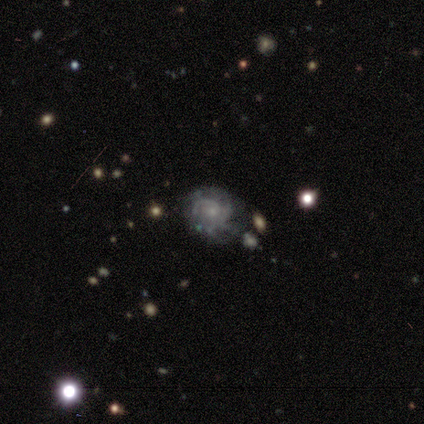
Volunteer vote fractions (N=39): Smooth or featured? 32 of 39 (82%) said featured or disk. Edge-on disk? 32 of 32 (100%) said no. Bar? 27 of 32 (84%) said no. Spiral arms? 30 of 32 (94%) said yes. Spiral winding? 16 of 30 (53%) said tight. Spiral arm count? 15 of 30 (50%) said can't tell. Bulge size? 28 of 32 (88%) said small. Merging? 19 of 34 (56%) said none.